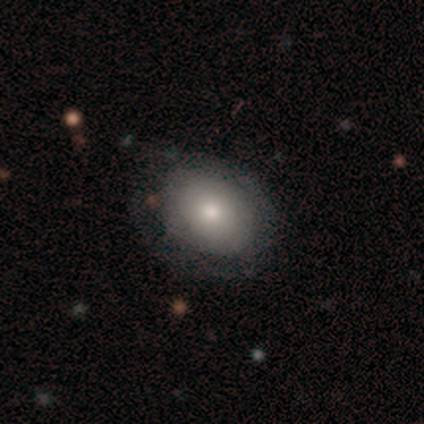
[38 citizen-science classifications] Smooth or featured?
  - smooth: 58% *
  - featured or disk: 26%
  - star or artifact: 16%
How rounded?
  - in between: 77% *
  - round: 23%
  - cigar-shaped: 0%
Merging?
  - none: 59% *
  - minor disturbance: 28%
  - major disturbance: 12%
  - merger: 0%